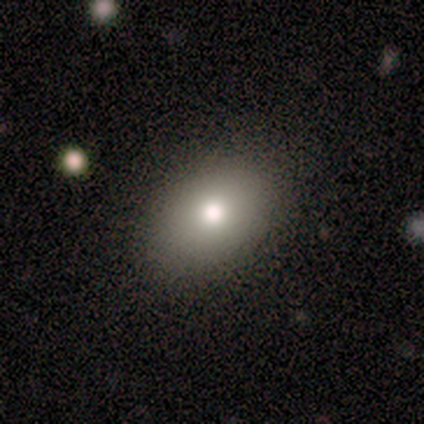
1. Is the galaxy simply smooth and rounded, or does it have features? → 100% smooth, 0% featured or disk, 0% star or artifact.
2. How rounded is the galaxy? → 80% in between, 20% round, 0% cigar-shaped.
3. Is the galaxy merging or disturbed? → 80% none, 20% merger, 0% minor disturbance, 0% major disturbance.